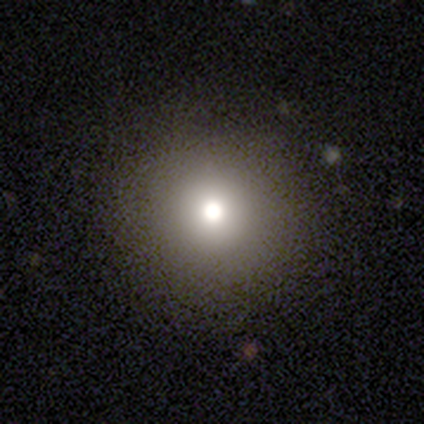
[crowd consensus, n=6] Smooth or featured: smooth — 83% (featured or disk — 17%)
How rounded: round — 100%
Merging: none — 100%